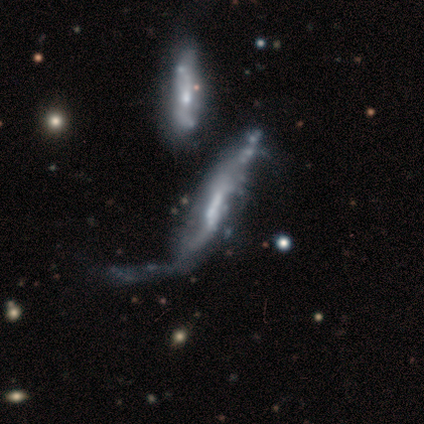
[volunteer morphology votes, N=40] type=featured or disk (78%); edge-on=no (71%); bar=weak (36%); spiral arms=yes (59%); winding=loose (46%); arm count=can't tell (62%); bulge=moderate (32%, tied with small and none); merging=major disturbance (41%).